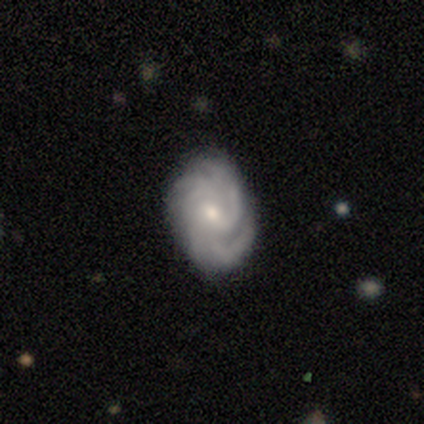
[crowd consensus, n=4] featured or disk 100%, smooth 0%, star or artifact 0%. Down the decision tree: edge-on disk — no (100%); bar — weak (100%); spiral arms — yes (100%); spiral arm count — 2 (25%, tied with 3, 4 and more than 4); spiral winding — tight (50%, tied with medium); bulge size — small (75%); merging — none (75%).